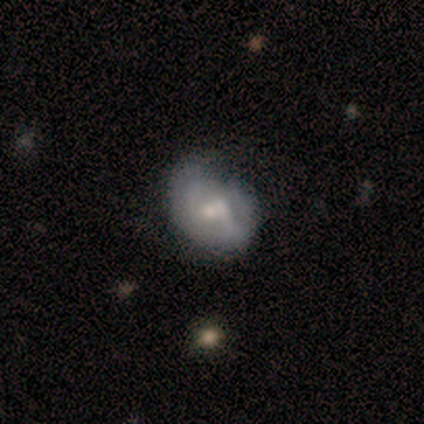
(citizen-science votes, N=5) Smooth or featured: featured or disk — 60% (smooth — 40%)
Edge-on disk: no — 100%
Bar: weak — 100%
Spiral arms: no — 67% (yes — 33%)
Bulge size: small — 67% (moderate — 33%)
Merging: none — 80% (major disturbance — 20%)